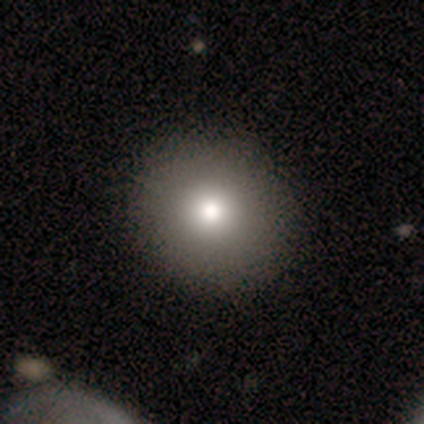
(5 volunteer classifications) Overall: smooth (60%; featured or disk 20%). How rounded: round (100%). Merging: none (100%).